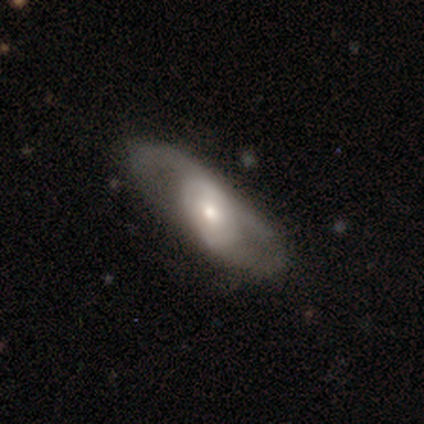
Smooth or featured?
  - featured or disk: 77% *
  - smooth: 20%
  - star or artifact: 3%
Edge-on disk?
  - no: 85% *
  - yes: 15%
Bar?
  - no: 70% *
  - weak: 26%
  - strong: 4%
Spiral arms?
  - no: 52% *
  - yes: 48%
Bulge size?
  - moderate: 48% * (tied)
  - small: 48% * (tied)
  - large: 4%
  - dominant: 0%
  - none: 0%
Merging?
  - none: 74% *
  - minor disturbance: 18%
  - major disturbance: 9%
  - merger: 0%